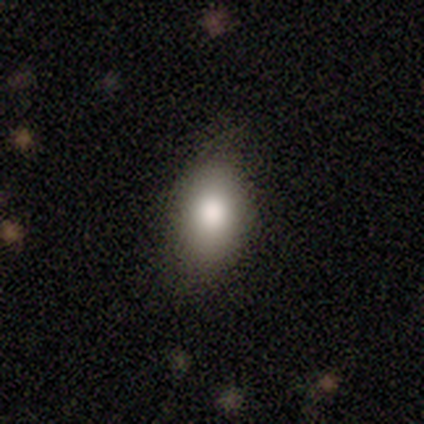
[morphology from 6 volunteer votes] type=smooth (50%); roundness=round (33%, tied with in between and cigar-shaped); merging=none (60%).